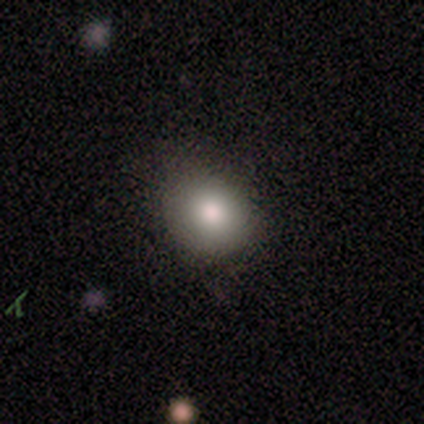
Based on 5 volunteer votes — Smooth or featured? smooth (100%)
How rounded? round (60%)
Merging? none (80%)